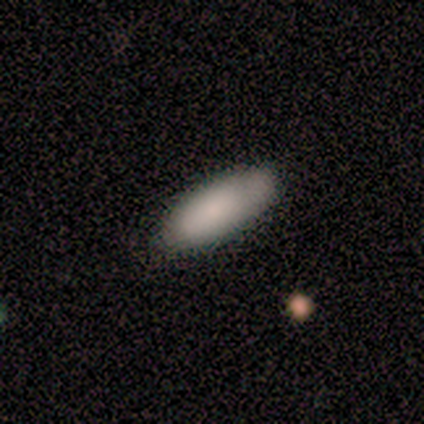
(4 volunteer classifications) Overall: smooth (100%). How rounded: in between (100%). Merging: none (100%).